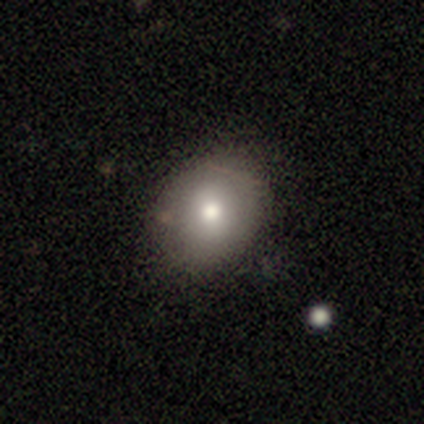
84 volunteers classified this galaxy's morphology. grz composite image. It shows a smooth galaxy with no disk features (76%) that is round (62%). Merging: none (89%).